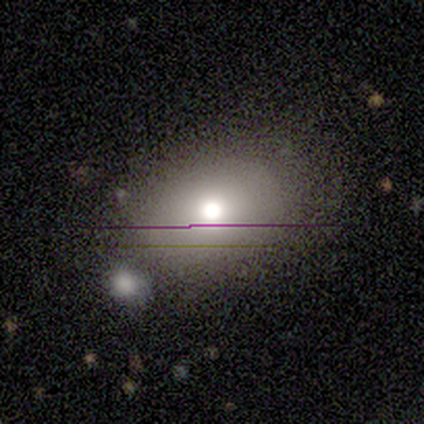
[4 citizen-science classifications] Overall: featured or disk (50%; smooth 25%). Edge-on disk: yes (50%, tied with no). Edge-on bulge: rounded (100%). Merging: merger (67%; none 33%).